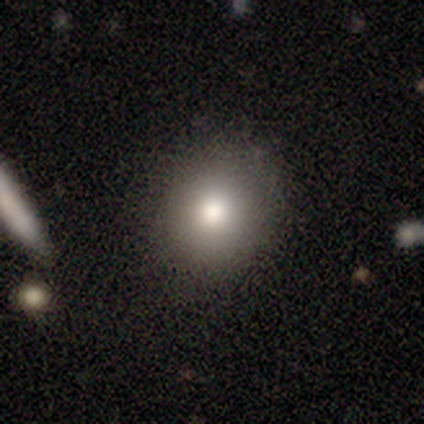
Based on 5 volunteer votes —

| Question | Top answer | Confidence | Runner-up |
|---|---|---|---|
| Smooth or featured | smooth | 40% | tied: featured or disk (40%) |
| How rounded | round | 100% | — |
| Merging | none | 100% | — |